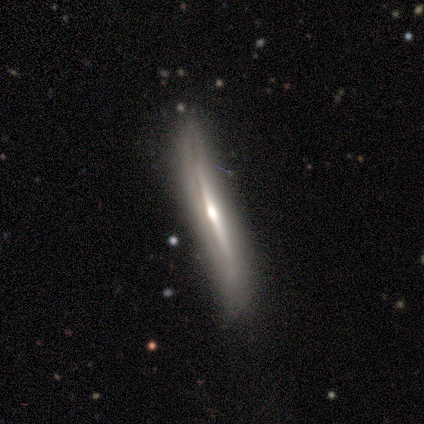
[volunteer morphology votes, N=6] A featured or disk galaxy (67%) viewed edge-on (100%) with no central bulge (50%, tied with rounded).

Vote fractions:
- Smooth or featured? featured or disk: 67% / smooth: 33% / star or artifact: 0%
- Edge-on disk? yes: 100% / no: 0%
- Edge-on bulge? none: 50% (tied) / rounded: 50% (tied) / boxy: 0%
- Merging? none: 50% (tied) / minor disturbance: 50% (tied) / major disturbance: 0% / merger: 0%